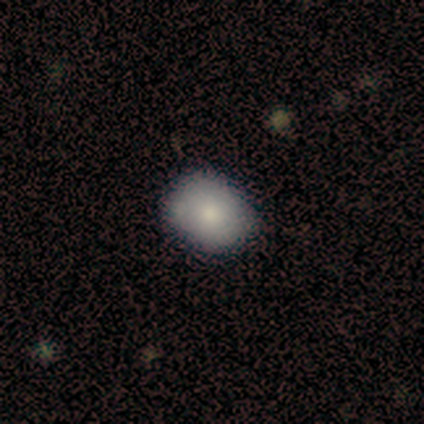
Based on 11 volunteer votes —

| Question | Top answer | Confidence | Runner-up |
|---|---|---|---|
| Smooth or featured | smooth | 91% | star or artifact (9%) |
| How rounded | round | 70% | in between (30%) |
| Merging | none | 90% | minor disturbance (10%) |